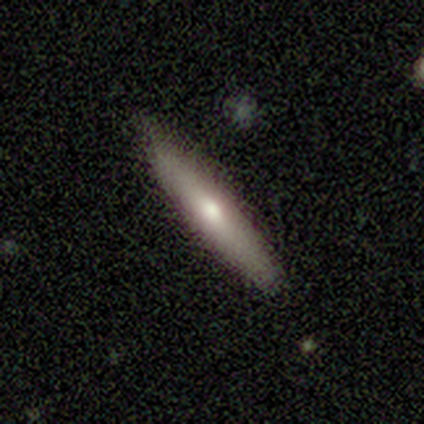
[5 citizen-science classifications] smooth 80%, featured or disk 20%, star or artifact 0%. Down the decision tree: how rounded — cigar-shaped (75%); merging — none (80%).